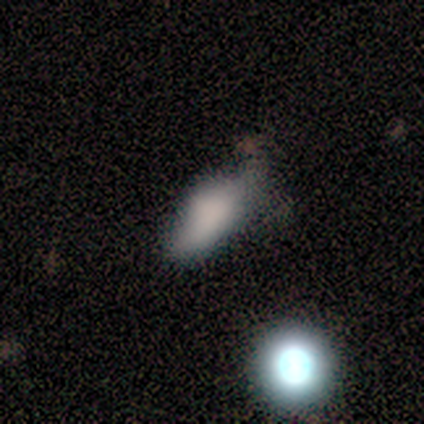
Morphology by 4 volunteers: Volunteers were most divided on "merging" (2-way tie): minor disturbance: 50%, major disturbance: 50%, none: 0%, merger: 0%. More confident: how rounded — in between (100%); smooth or featured — smooth (75%).